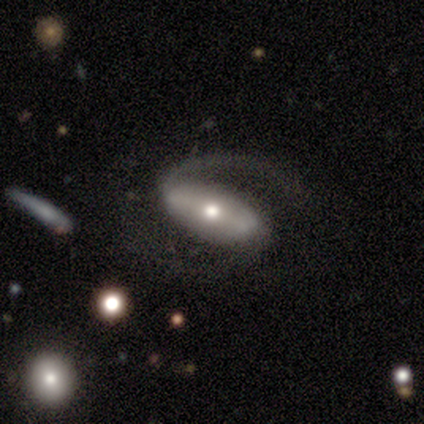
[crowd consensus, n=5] Smooth or featured? 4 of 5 (80%) said featured or disk. Edge-on disk? 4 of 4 (100%) said no. Bar? 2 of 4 (50%, tied with weak) said strong. Spiral arms? 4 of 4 (100%) said yes. Spiral winding? 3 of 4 (75%) said medium. Spiral arm count? 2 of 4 (50%, tied with 2) said 1. Bulge size? 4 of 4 (100%) said moderate. Merging? 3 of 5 (60%) said none.